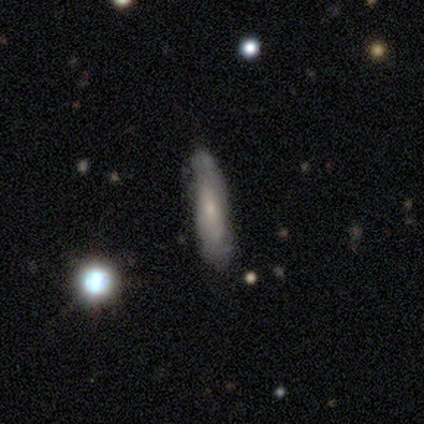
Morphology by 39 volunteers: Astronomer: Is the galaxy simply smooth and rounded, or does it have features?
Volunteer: smooth — 59%.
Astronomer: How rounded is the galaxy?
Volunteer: cigar-shaped — 78%.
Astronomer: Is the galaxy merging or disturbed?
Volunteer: none — 56% (runner-up: minor disturbance, 33%).